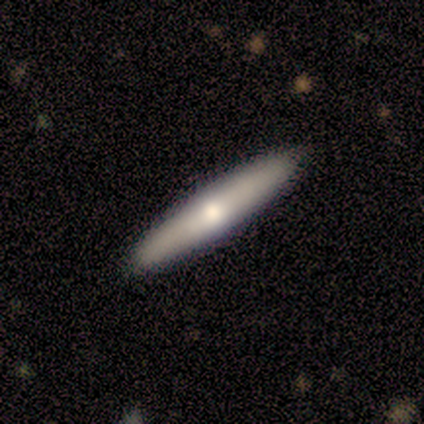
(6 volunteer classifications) Overall: smooth (67%; featured or disk 33%). How rounded: cigar-shaped (100%). Merging: none (100%).